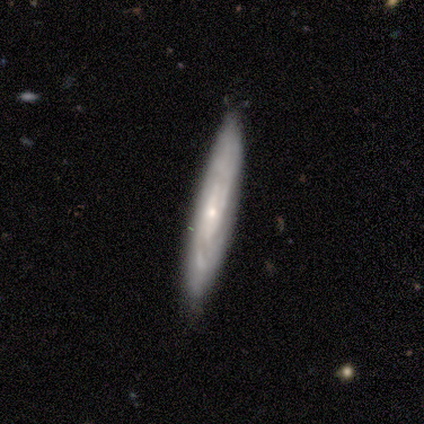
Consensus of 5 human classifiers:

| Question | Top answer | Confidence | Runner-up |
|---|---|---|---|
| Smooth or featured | featured or disk | 100% | — |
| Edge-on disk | yes | 60% | no (40%) |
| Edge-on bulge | none | 67% | rounded (33%) |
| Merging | none | 100% | — |